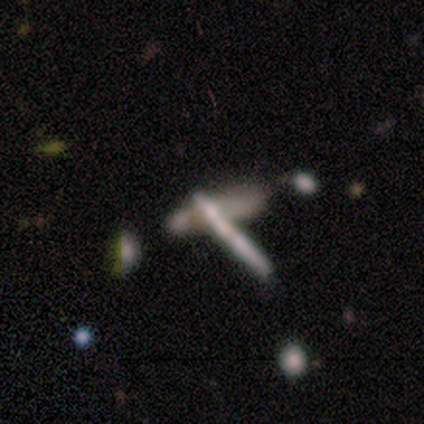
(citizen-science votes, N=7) smooth 71%, featured or disk 29%, star or artifact 0%. Down the decision tree: how rounded — cigar-shaped (100%); merging — none (43%).